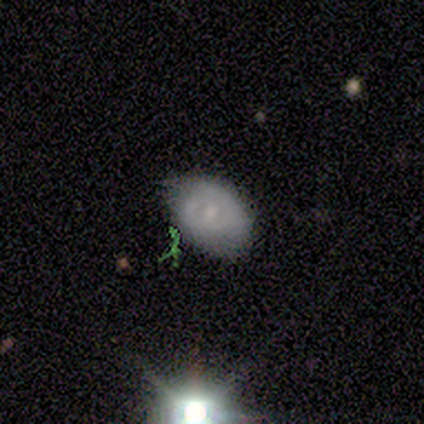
A smooth galaxy with no disk features (60%) that is in between round and cigar-shaped (100%).

Vote fractions:
- Smooth or featured? smooth: 60% / featured or disk: 20% / star or artifact: 20%
- How rounded? in between: 100% / round: 0% / cigar-shaped: 0%
- Merging? none: 75% / minor disturbance: 25% / major disturbance: 0% / merger: 0%